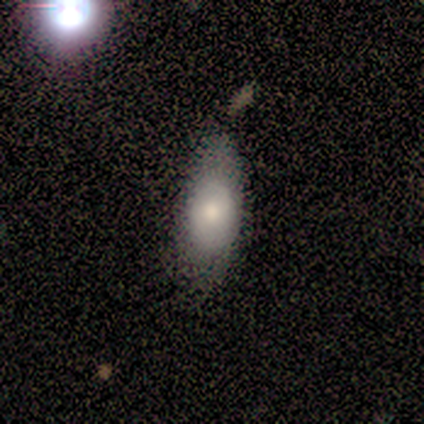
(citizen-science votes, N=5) A smooth galaxy with no disk features (80%) that is in between round and cigar-shaped (100%). Merging: none (60%).